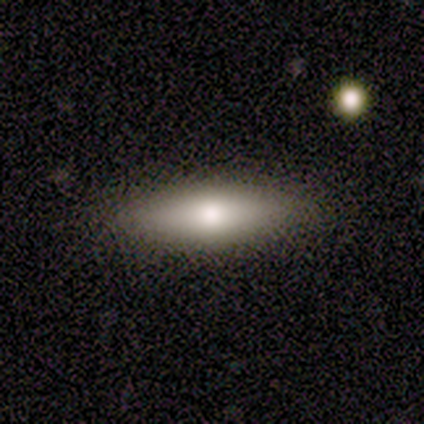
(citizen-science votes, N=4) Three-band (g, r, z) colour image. It shows a smooth galaxy with no disk features (75%) that is cigar-shaped (67%). Merging: none (75%).